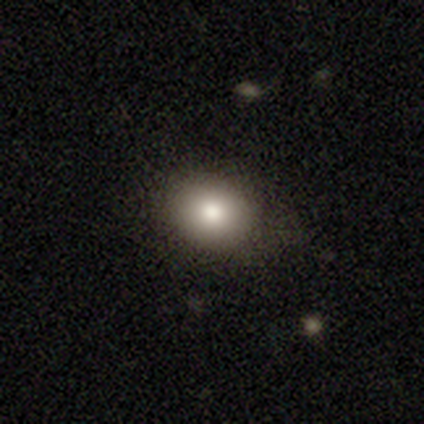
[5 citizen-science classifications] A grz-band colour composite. It shows a smooth galaxy with no disk features (100%) that is round (80%). Merging: none (100%).